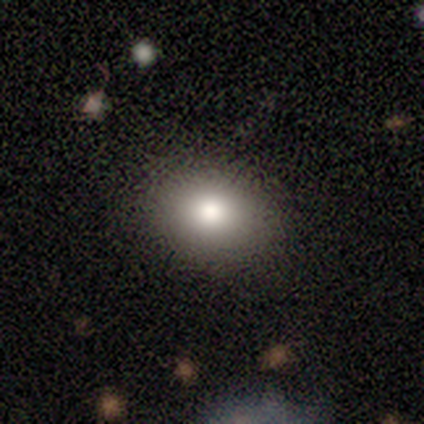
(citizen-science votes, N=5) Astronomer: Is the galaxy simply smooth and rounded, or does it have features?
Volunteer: smooth — 100%.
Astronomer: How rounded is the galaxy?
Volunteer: in between — 100%.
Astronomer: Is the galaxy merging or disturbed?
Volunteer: none — 80%.